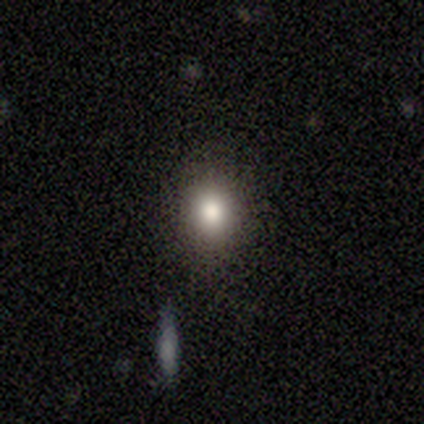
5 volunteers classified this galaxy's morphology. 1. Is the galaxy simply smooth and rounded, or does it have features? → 100% smooth, 0% featured or disk, 0% star or artifact.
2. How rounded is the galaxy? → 60% round, 40% in between, 0% cigar-shaped.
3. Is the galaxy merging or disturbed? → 60% none, 40% minor disturbance, 0% major disturbance, 0% merger.